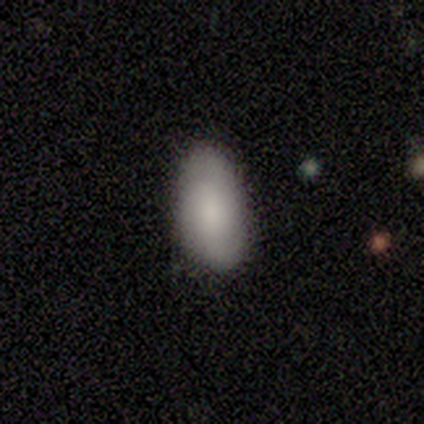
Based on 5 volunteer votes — Smooth or featured: smooth — 80% (star or artifact — 20%)
How rounded: in between — 100%
Merging: none — 75% (minor disturbance — 25%)